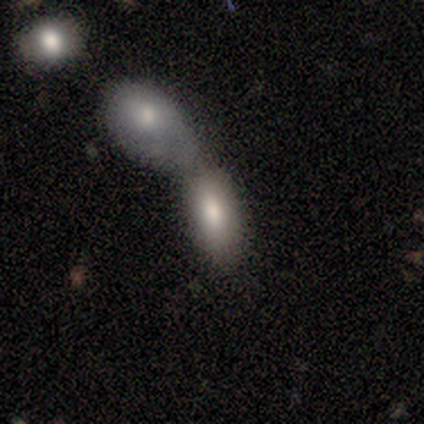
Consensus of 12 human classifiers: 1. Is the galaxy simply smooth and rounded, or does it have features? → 58% smooth, 33% featured or disk, 8% star or artifact.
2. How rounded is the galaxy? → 71% in between, 29% cigar-shaped, 0% round.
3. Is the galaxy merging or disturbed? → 82% merger, 18% minor disturbance, 0% none, 0% major disturbance.